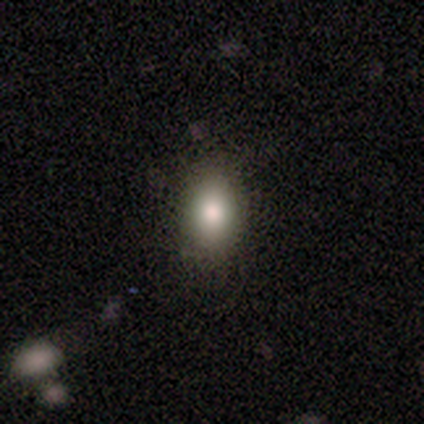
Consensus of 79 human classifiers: Volunteers were most divided on "merging": none: 58%, minor disturbance: 6%, major disturbance: 0%, merger: 0%. More confident: how rounded — in between (87%); smooth or featured — smooth (85%).